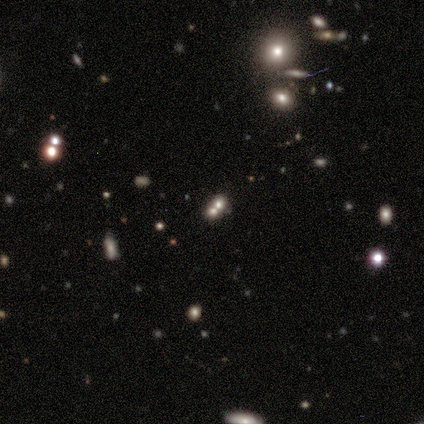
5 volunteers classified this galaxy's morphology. A smooth galaxy with no disk features (60%) that is round (67%).

Vote fractions:
- Smooth or featured? smooth: 60% / featured or disk: 40% / star or artifact: 0%
- How rounded? round: 67% / in between: 33% / cigar-shaped: 0%
- Merging? merger: 60% / none: 20% / minor disturbance: 20% / major disturbance: 0%